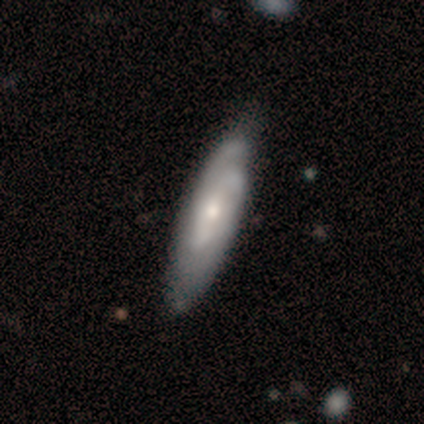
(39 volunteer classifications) This is likely a featured or disk galaxy (69%). It is likely not viewed edge-on (63%). Bar: likely no (76%). Spiral arm pattern: clearly yes (88%). Spiral arm count: possibly 2 (47%). Spiral winding: marginally tight (40%). Central bulge: possibly small (53%). Merging: likely none (62%).